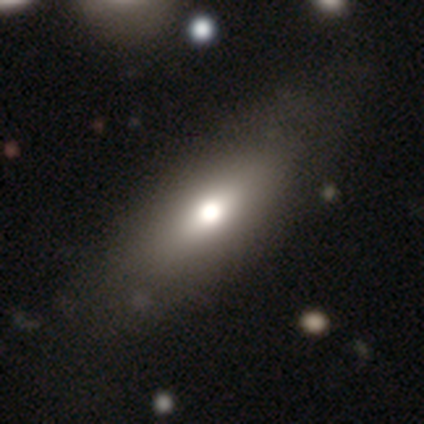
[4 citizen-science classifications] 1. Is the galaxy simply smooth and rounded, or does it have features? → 50% smooth (tied), 50% featured or disk (tied), 0% star or artifact.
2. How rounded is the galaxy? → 100% cigar-shaped, 0% round, 0% in between.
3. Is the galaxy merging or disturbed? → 75% none, 25% major disturbance, 0% minor disturbance, 0% merger.